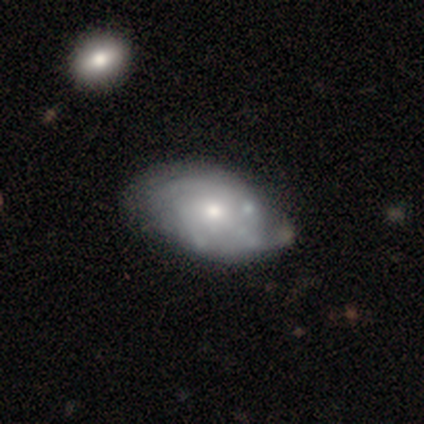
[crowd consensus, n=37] Overall: featured or disk (68%). Edge-on disk: no (100%). Bar: no (84%). Spiral arms: yes (60%; no 40%). Spiral arm count: can't tell (53%; 2 20%). Spiral winding: tight (47%; medium 27%). Bulge size: small (68%). Merging: none (64%; minor disturbance 27%).